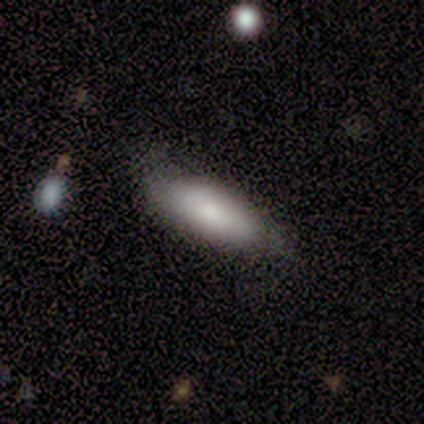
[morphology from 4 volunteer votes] smooth-or-featured: smooth: 100% | featured or disk: 0% | star or artifact: 0%
  how-rounded: in between: 75% | cigar-shaped: 25% | round: 0%
  merging: none: 75% | minor disturbance: 25% | major disturbance: 0% | merger: 0%